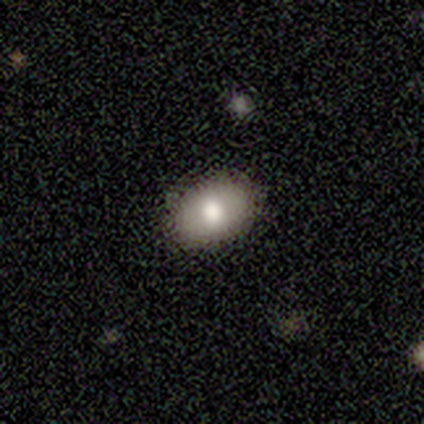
A smooth galaxy with no disk features (93%) that is in between round and cigar-shaped (93%).

Vote fractions:
- Smooth or featured? smooth: 93% / star or artifact: 7% / featured or disk: 0%
- How rounded? in between: 93% / round: 7% / cigar-shaped: 0%
- Merging? none: 86% / minor disturbance: 7% / major disturbance: 7% / merger: 0%